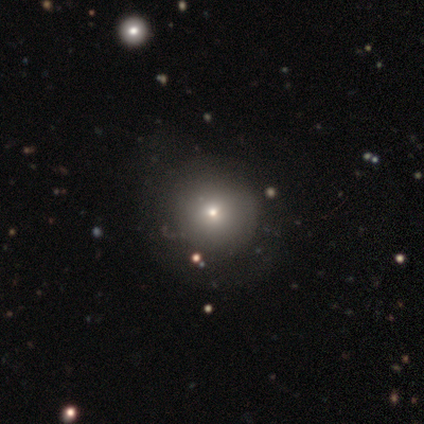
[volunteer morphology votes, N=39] This is likely a smooth galaxy (77%). How rounded: clearly round (93%). Merging: likely none (67%).